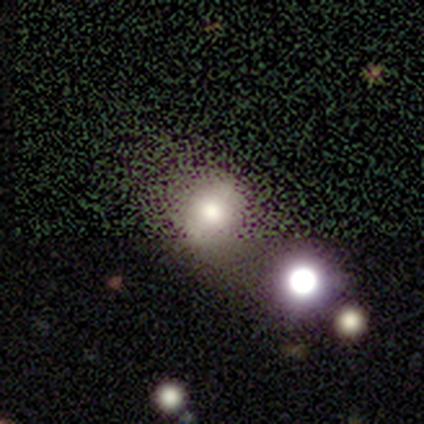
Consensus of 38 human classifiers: A smooth galaxy with no disk features (63%) that is round (88%).

Vote fractions:
- Smooth or featured? smooth: 63% / star or artifact: 21% / featured or disk: 16%
- How rounded? round: 88% / in between: 12% / cigar-shaped: 0%
- Merging? none: 47% / merger: 17% / minor disturbance: 10% / major disturbance: 7%